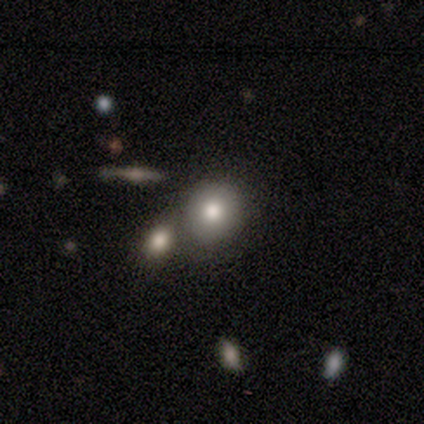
smooth-or-featured: smooth: 60% | featured or disk: 40% | star or artifact: 0%
  how-rounded: round: 67% | in between: 33% | cigar-shaped: 0%
  merging: none: 60% | merger: 40% | minor disturbance: 0% | major disturbance: 0%